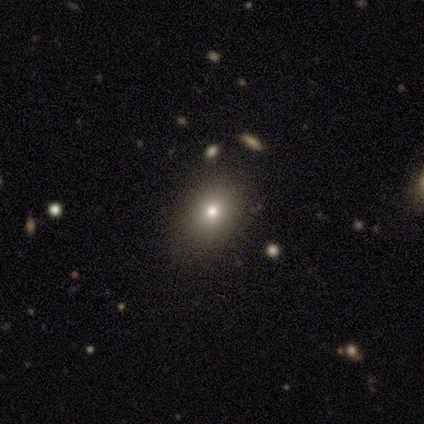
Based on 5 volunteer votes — smooth_or_featured: smooth (p=0.80) [alt: star or artifact p=0.20]
how_rounded: in between (p=0.75) [alt: round p=0.25]
merging: none (p=1.00)